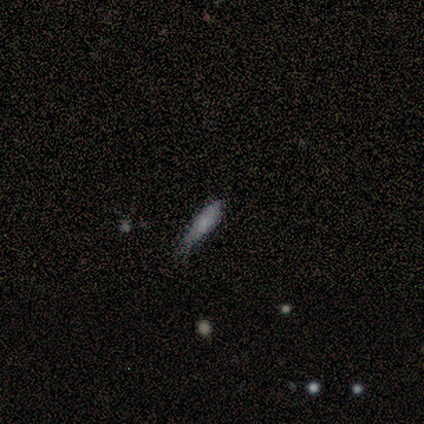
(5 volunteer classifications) This appears to be a smooth galaxy with no disk features (80%) that is in between round and cigar-shaped (50%, tied with cigar-shaped). Merging: none (50%, tied with minor disturbance).